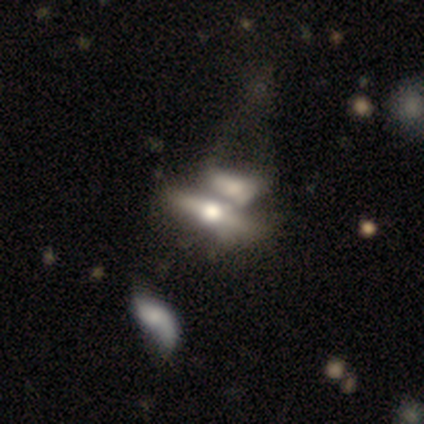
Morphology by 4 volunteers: Smooth or featured: smooth — 50% (tied with featured or disk — 50%)
How rounded: in between — 50% (tied with cigar-shaped — 50%)
Merging: merger — 100%